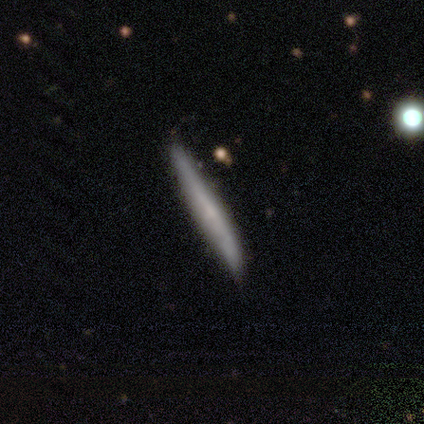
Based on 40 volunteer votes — Q: Smooth or featured?
A: smooth (52%); runner-up: featured or disk (45%)
Q: How rounded?
A: cigar-shaped (100%)
Q: Merging?
A: none (56%); runner-up: minor disturbance (23%)